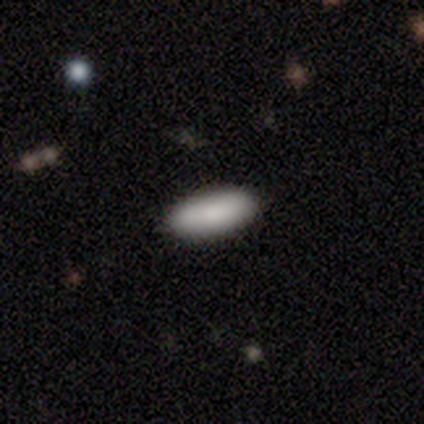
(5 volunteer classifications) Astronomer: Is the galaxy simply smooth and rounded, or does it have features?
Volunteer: smooth — 80%.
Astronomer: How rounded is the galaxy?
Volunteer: in between — 75%.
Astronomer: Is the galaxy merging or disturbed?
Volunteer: major disturbance — 50%.